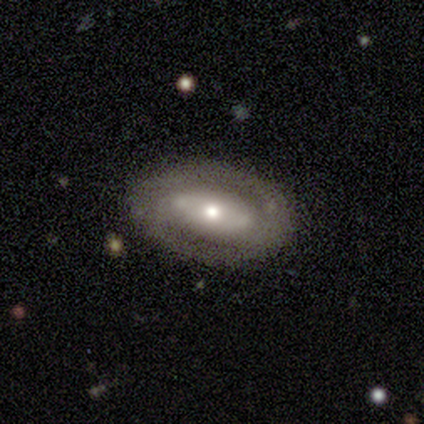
Smooth or featured: featured or disk — 82% (smooth — 12%)
Edge-on disk: no — 88% (yes — 12%)
Bar: no — 52% (strong — 31%)
Spiral arms: yes — 59% (no — 41%)
Spiral winding: tight — 65% (medium — 18%)
Spiral arm count: 2 — 59% (can't tell — 35%)
Bulge size: moderate — 55% (small — 28%)
Merging: none — 76% (minor disturbance — 13%)